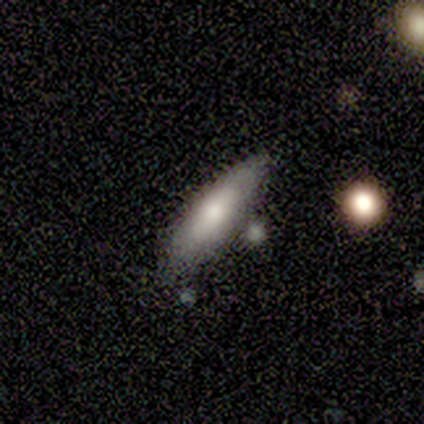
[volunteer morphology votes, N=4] A smooth galaxy with no disk features (50%, tied with featured or disk) that is in between round and cigar-shaped (50%, tied with cigar-shaped). Merging: none (100%).